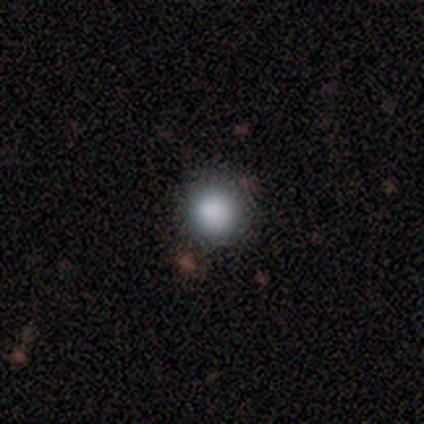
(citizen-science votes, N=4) Smooth or featured?
  - smooth: 100% *
  - featured or disk: 0%
  - star or artifact: 0%
How rounded?
  - round: 100% *
  - in between: 0%
  - cigar-shaped: 0%
Merging?
  - none: 100% *
  - minor disturbance: 0%
  - major disturbance: 0%
  - merger: 0%